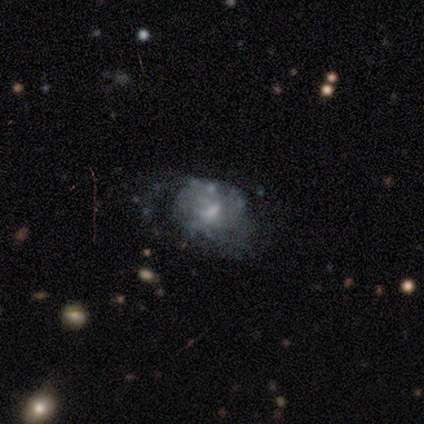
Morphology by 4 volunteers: smooth 50% (tied), featured or disk 50% (tied), star or artifact 0%. Down the decision tree: how rounded — round (50%, tied with in between); merging — minor disturbance (75%).